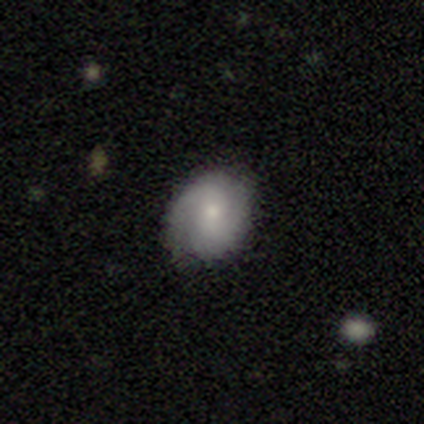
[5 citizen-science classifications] smooth 60%, featured or disk 40%, star or artifact 0%. Down the decision tree: how rounded — in between (67%); merging — none (80%).